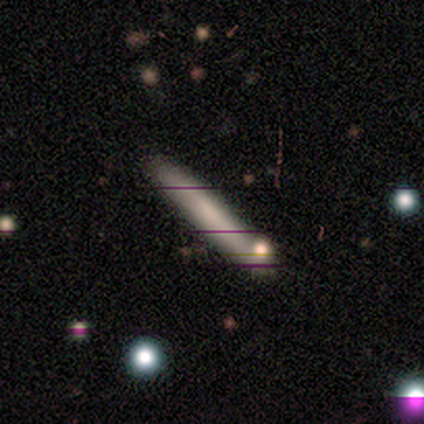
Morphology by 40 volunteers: Volunteers were most divided on "smooth or featured": smooth: 65%, featured or disk: 25%, star or artifact: 10%. More confident: how rounded — cigar-shaped (96%); merging — none (58%).